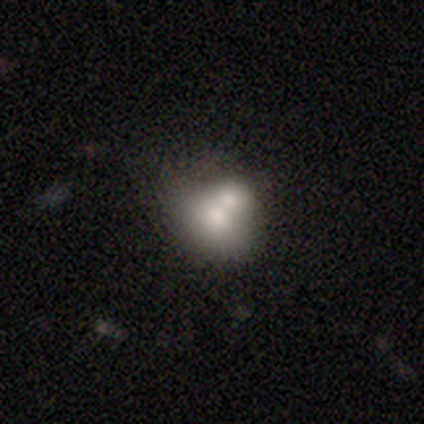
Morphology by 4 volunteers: smooth 100%, featured or disk 0%, star or artifact 0%. Down the decision tree: how rounded — round (75%); merging — none (50%, tied with merger).